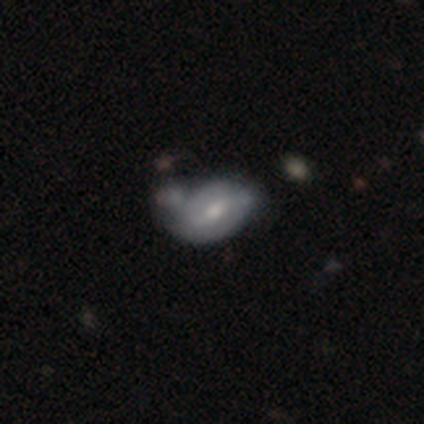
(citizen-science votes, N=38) Smooth or featured?
  - smooth: 47% * (tied)
  - featured or disk: 47% * (tied)
  - star or artifact: 5%
How rounded?
  - in between: 94% *
  - round: 6%
  - cigar-shaped: 0%
Merging?
  - minor disturbance: 33% *
  - none: 31%
  - merger: 19%
  - major disturbance: 17%